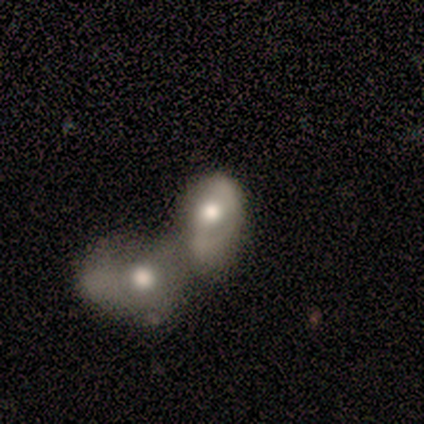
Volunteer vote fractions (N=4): Smooth or featured: featured or disk — 75% (smooth — 25%)
Edge-on disk: no — 100%
Bar: no — 67% (weak — 33%)
Spiral arms: yes — 100%
Spiral winding: medium — 100%
Spiral arm count: can't tell — 67% (2 — 33%)
Bulge size: large — 33% (tied with moderate — 33%; small — 33%)
Merging: merger — 100%